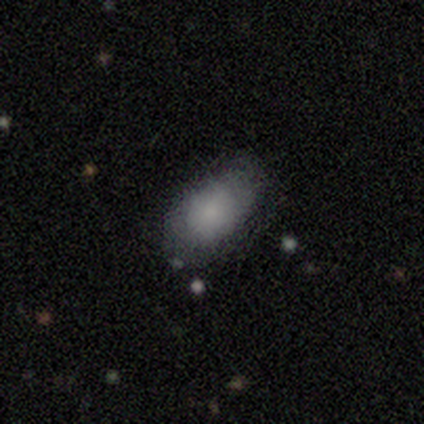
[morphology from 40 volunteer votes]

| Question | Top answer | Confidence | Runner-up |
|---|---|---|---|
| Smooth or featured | smooth | 95% | featured or disk (5%) |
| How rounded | in between | 92% | round (5%) |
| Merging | none | 75% | minor disturbance (22%) |